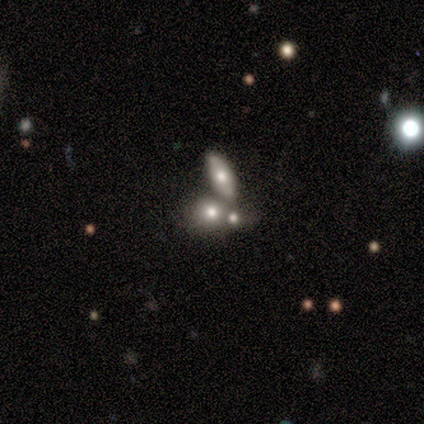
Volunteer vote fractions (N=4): Volunteers were most divided on "smooth or featured" (2-way tie): smooth: 50%, featured or disk: 50%, star or artifact: 0%; "how rounded" (2-way tie): in between: 50%, cigar-shaped: 50%, round: 0%. More confident: merging — merger (75%).